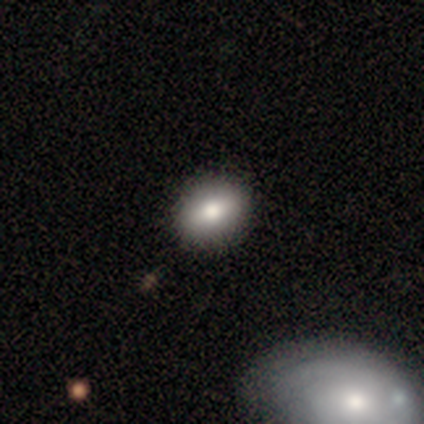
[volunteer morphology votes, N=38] Smooth or featured?
  - smooth: 87% *
  - featured or disk: 13%
  - star or artifact: 0%
How rounded?
  - in between: 64% *
  - round: 36%
  - cigar-shaped: 0%
Merging?
  - none: 58% *
  - minor disturbance: 3%
  - major disturbance: 0%
  - merger: 0%